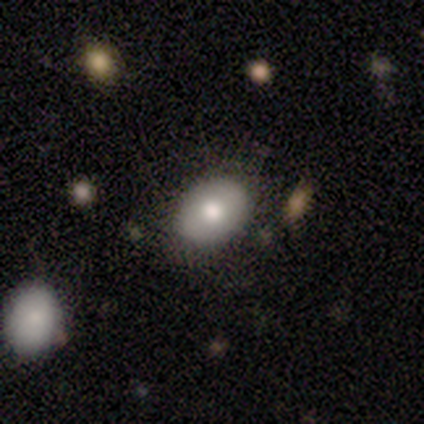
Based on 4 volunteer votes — Volunteers were most divided on "how rounded": round: 67%, in between: 33%, cigar-shaped: 0%. More confident: merging — none (100%); smooth or featured — smooth (75%).